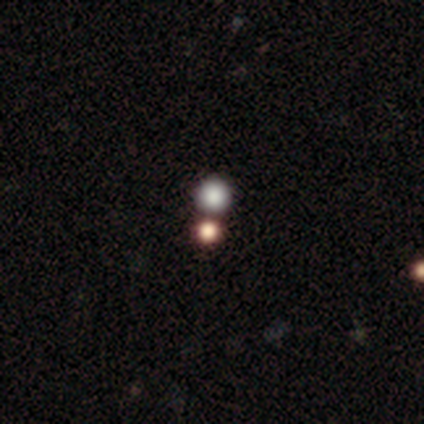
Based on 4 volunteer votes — This appears to be a smooth galaxy with no disk features (50%) that is round (100%). Merging: none (33%, tied with minor disturbance and merger).